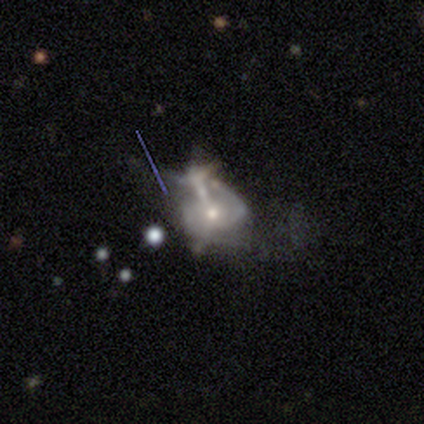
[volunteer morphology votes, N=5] smooth-or-featured: featured or disk: 80% | smooth: 20% | star or artifact: 0%
  disk-edge-on: no: 100% | yes: 0%
    bar: no: 75% | strong: 25% | weak: 0%
    has-spiral-arms: yes: 100% | no: 0%
      spiral-winding: medium: 50% (tied) | loose: 50% (tied) | tight: 0%
      spiral-arm-count: 2: 50% | 1: 25% | 3: 25% | 4: 0% | more than 4: 0% | can't tell: 0%
    bulge-size: small: 75% | moderate: 25% | dominant: 0% | large: 0% | none: 0%
  merging: major disturbance: 40% | none: 20% | minor disturbance: 20% | merger: 20%